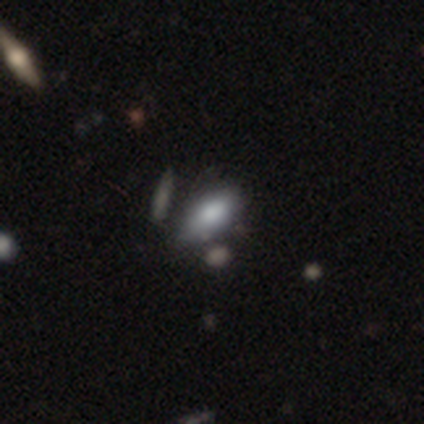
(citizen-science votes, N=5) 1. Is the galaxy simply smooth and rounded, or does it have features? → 100% smooth, 0% featured or disk, 0% star or artifact.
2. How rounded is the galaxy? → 100% in between, 0% round, 0% cigar-shaped.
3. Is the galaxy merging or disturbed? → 100% none, 0% minor disturbance, 0% major disturbance, 0% merger.